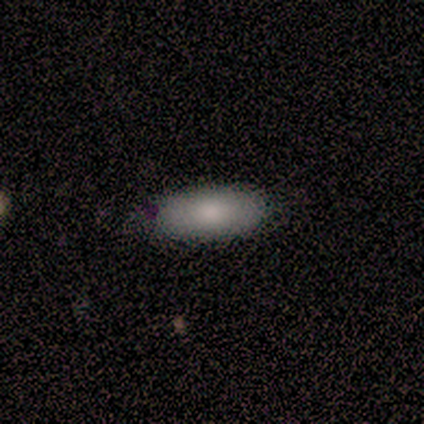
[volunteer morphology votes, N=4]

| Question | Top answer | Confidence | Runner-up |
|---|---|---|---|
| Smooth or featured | smooth | 100% | — |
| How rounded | in between | 75% | cigar-shaped (25%) |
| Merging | none | 50% | minor disturbance (25%) |